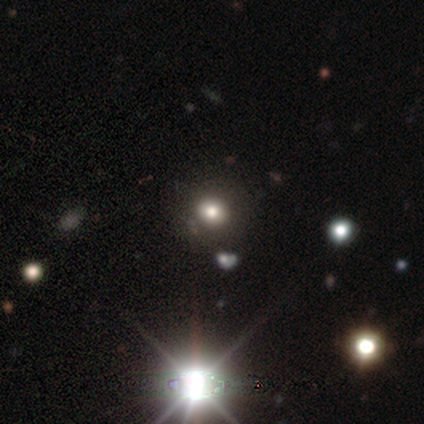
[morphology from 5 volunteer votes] A star or artifact, not a galaxy (60%).